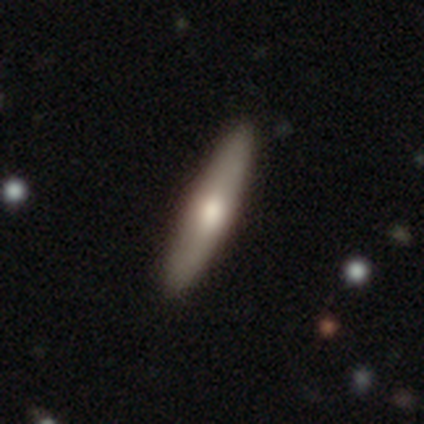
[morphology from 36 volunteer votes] smooth_or_featured: smooth (p=0.56) [alt: featured or disk p=0.44]
how_rounded: cigar-shaped (p=0.80) [alt: in between p=0.20]
merging: none (p=0.97) [alt: minor disturbance p=0.03]